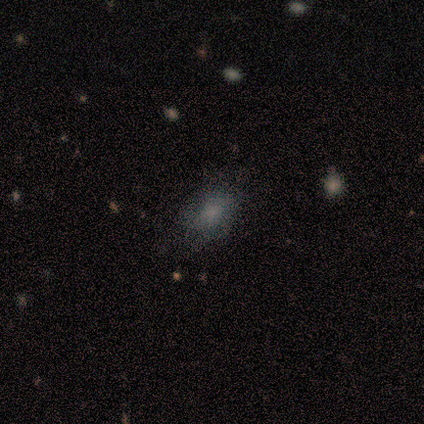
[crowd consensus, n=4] Smooth or featured: smooth — 50% (tied with featured or disk — 50%)
How rounded: round — 50% (tied with in between — 50%)
Merging: none — 50% (tied with minor disturbance — 50%)